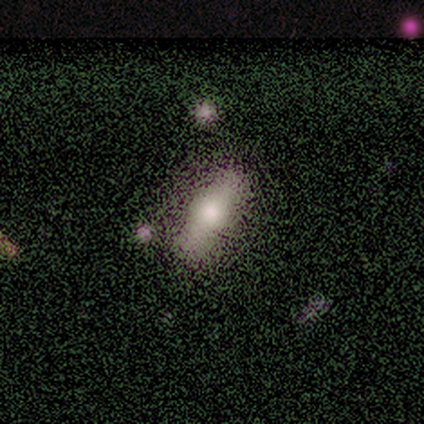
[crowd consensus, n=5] A smooth galaxy with no disk features (80%) that is in between round and cigar-shaped (100%).

Vote fractions:
- Smooth or featured? smooth: 80% / featured or disk: 20% / star or artifact: 0%
- How rounded? in between: 100% / round: 0% / cigar-shaped: 0%
- Merging? none: 60% / minor disturbance: 20% / major disturbance: 20% / merger: 0%